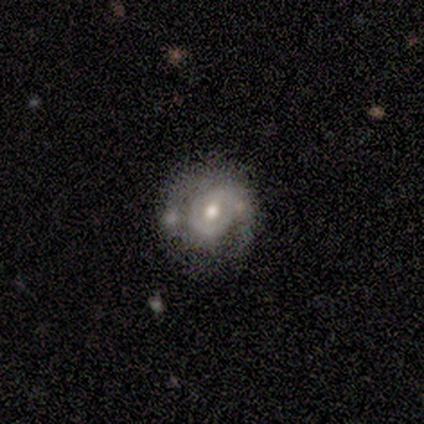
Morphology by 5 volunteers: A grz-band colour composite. It shows a featured or disk galaxy (80%) with no bar (67%), 1 (100%) tight (50%, tied with loose) spiral arms (67%) and a moderate central bulge (67%). Merging: none (40%, tied with minor disturbance).